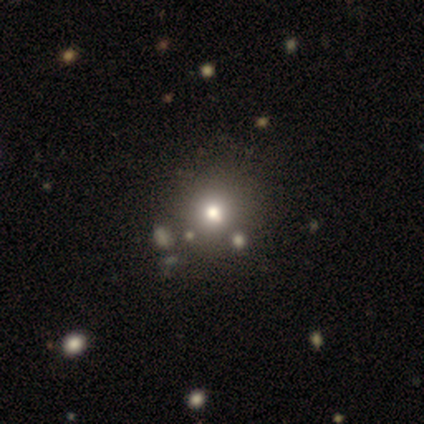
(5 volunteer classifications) A smooth galaxy with no disk features (60%) that is round (100%). Merging: none (75%).